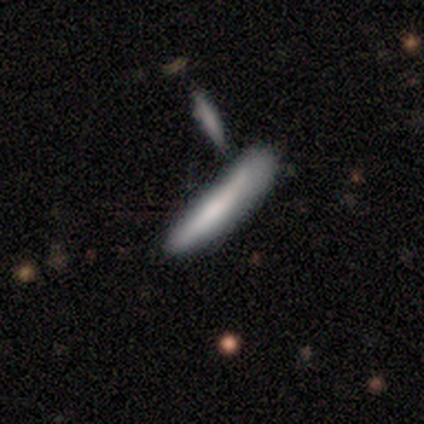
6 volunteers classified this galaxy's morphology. Smooth or featured? smooth (50%, tied with featured or disk)
How rounded? cigar-shaped (100%)
Merging? none (33%, tied with minor disturbance and merger)